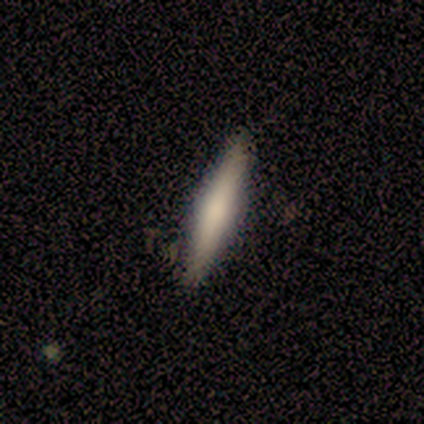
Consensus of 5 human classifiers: Overall: smooth (100%). How rounded: cigar-shaped (100%). Merging: none (80%).